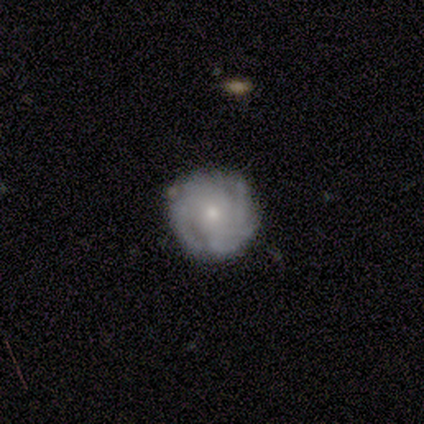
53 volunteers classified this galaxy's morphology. smooth_or_featured: featured or disk (p=0.64) [alt: smooth p=0.30]
disk_edge_on: no (p=1.00)
bar: no (p=0.82) [alt: weak p=0.12]
has_spiral_arms: yes (p=0.85) [alt: no p=0.15]
spiral_winding: tight (p=0.66) [alt: medium p=0.21]
spiral_arm_count: can't tell (p=0.31) [alt: 3 p=0.28]
bulge_size: small (p=0.56) [alt: moderate p=0.41]
merging: none (p=0.72) [alt: minor disturbance p=0.20]